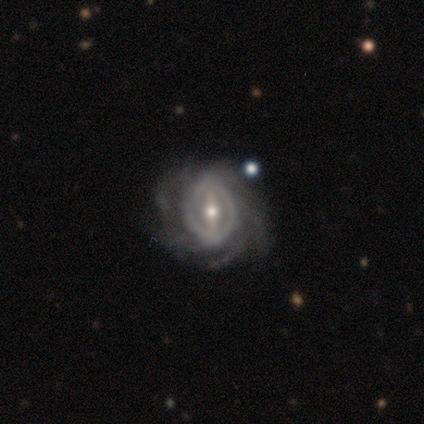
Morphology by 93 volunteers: This appears to be a featured or disk galaxy (87%) with a strong bar (57%), tight (52%) spiral arms (96%) and a small central bulge (53%). Merging: none (69%).